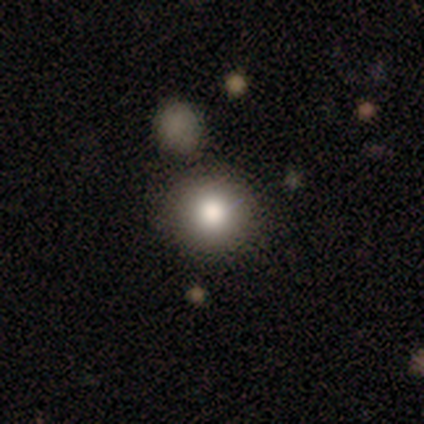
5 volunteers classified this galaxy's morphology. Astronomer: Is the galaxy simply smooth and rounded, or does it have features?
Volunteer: smooth — 100%.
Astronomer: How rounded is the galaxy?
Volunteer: round — 100%.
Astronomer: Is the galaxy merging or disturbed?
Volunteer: none — 100%.